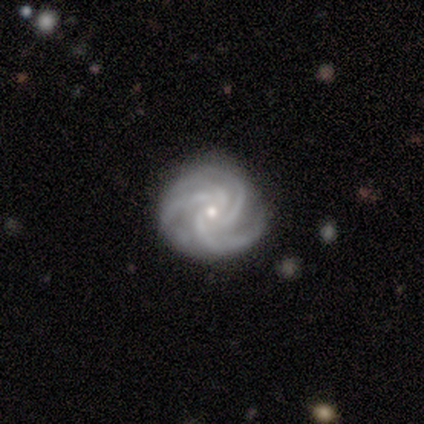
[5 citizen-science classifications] Overall: featured or disk (100%). Edge-on disk: no (100%). Bar: no (60%; strong 20%). Spiral arms: yes (100%). Spiral arm count: 3 (40%, tied with 4). Spiral winding: tight (60%; medium 40%). Bulge size: small (60%; moderate 40%). Merging: none (80%).